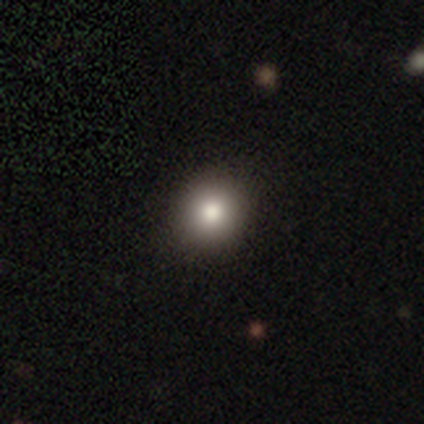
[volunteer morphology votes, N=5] Volunteers were most divided on "how rounded": round: 60%, in between: 40%, cigar-shaped: 0%. More confident: smooth or featured — smooth (100%); merging — none (80%).